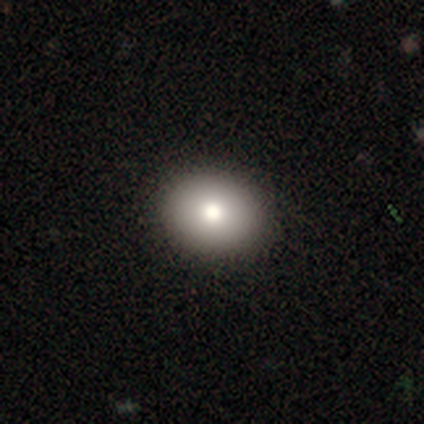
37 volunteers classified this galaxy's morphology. type=smooth (86%); roundness=round (66%); merging=none (100%).